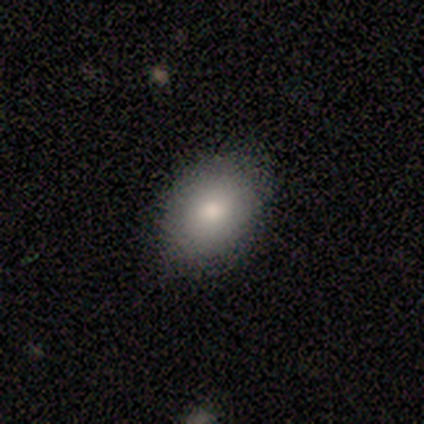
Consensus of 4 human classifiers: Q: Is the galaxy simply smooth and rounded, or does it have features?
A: smooth — 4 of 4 (100%).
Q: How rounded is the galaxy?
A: round — 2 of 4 (50%, tied with in between).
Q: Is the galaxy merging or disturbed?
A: none — 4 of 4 (100%).